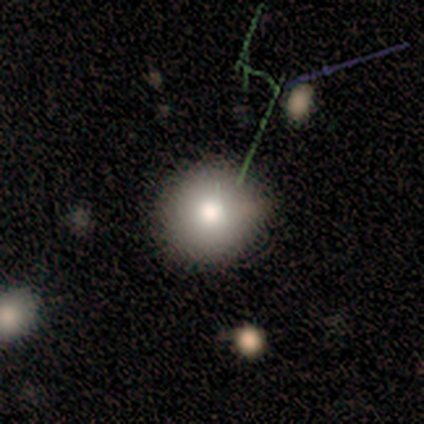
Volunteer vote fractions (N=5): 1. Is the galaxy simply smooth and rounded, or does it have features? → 60% smooth, 40% featured or disk, 0% star or artifact.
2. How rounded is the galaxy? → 100% round, 0% in between, 0% cigar-shaped.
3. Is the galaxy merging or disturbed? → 60% none, 40% minor disturbance, 0% major disturbance, 0% merger.